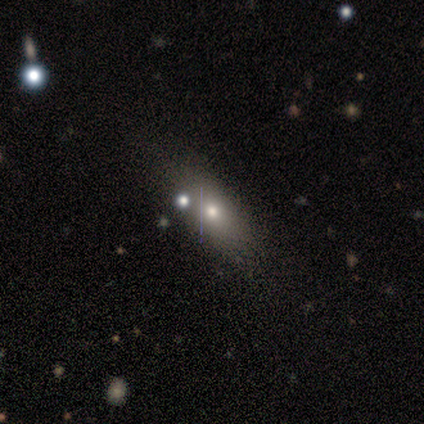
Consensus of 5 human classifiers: Smooth or featured? 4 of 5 (80%) said smooth. How rounded? 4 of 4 (100%) said in between. Merging? 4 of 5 (80%) said none.